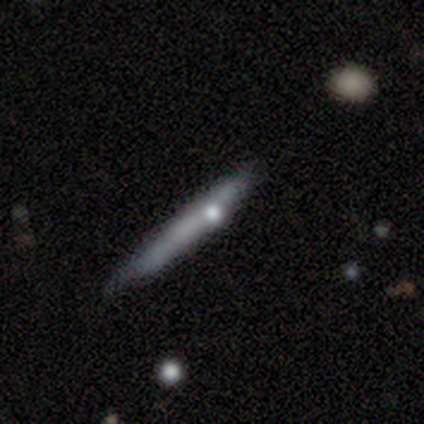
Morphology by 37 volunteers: This appears to be a smooth galaxy with no disk features (59%) that is cigar-shaped (100%). Merging: none (52%).